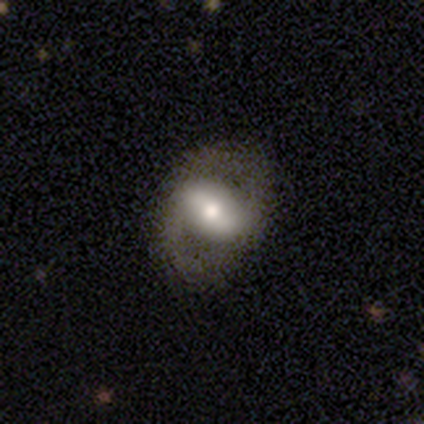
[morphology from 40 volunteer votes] Smooth or featured: featured or disk — 70% (smooth — 25%)
Edge-on disk: no — 96% (yes — 4%)
Bar: strong — 44% (weak — 33%)
Spiral arms: yes — 56% (no — 44%)
Spiral winding: medium — 53% (tight — 27%)
Spiral arm count: 2 — 80% (can't tell — 13%)
Bulge size: moderate — 67% (large — 19%)
Merging: none — 84% (minor disturbance — 8%)